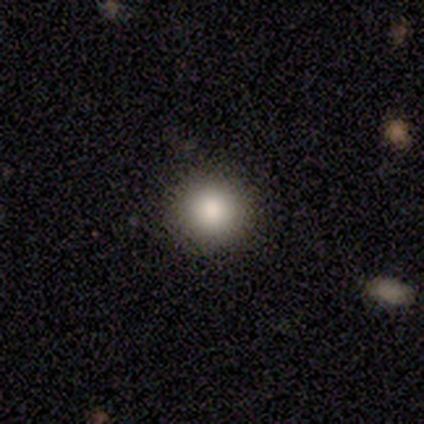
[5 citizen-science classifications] This is clearly a smooth galaxy (100%). How rounded: clearly round (100%). Merging: clearly none (100%).